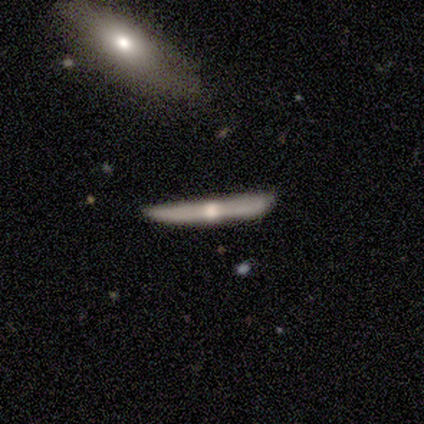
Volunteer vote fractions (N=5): Morphology: type=featured or disk (60%); edge-on=yes (100%); edge-on bulge=rounded (100%); merging=none (80%).